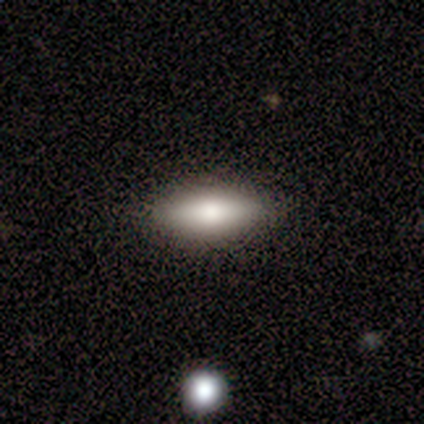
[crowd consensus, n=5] Volunteers were most divided on "how rounded" (2-way tie): in between: 50%, cigar-shaped: 50%, round: 0%. More confident: merging — none (100%); smooth or featured — smooth (80%).